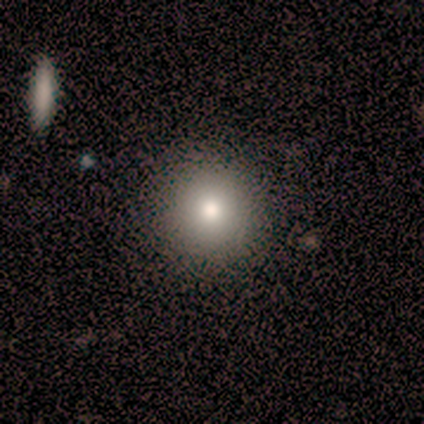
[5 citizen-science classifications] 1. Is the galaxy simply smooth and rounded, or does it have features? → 60% smooth, 20% featured or disk, 20% star or artifact.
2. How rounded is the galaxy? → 100% round, 0% in between, 0% cigar-shaped.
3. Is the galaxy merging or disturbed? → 75% none, 25% minor disturbance, 0% major disturbance, 0% merger.